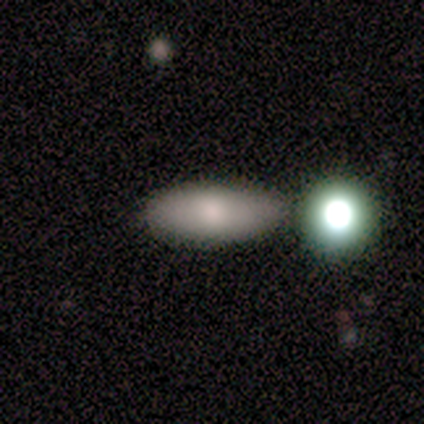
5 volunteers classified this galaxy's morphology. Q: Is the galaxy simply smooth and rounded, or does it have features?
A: smooth — 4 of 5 (80%).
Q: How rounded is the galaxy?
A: in between — 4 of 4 (100%).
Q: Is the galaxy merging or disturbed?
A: none — 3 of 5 (60%).